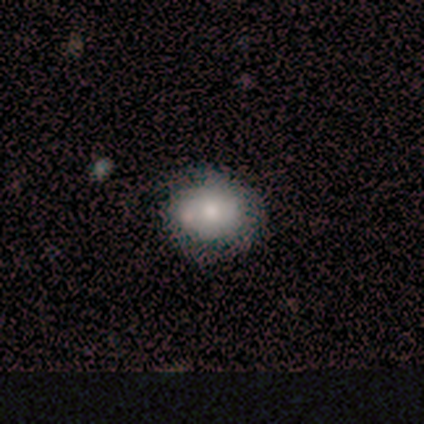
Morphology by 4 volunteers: smooth-or-featured: smooth: 75% | featured or disk: 25% | star or artifact: 0%
  how-rounded: round: 67% | in between: 33% | cigar-shaped: 0%
  merging: none: 100% | minor disturbance: 0% | major disturbance: 0% | merger: 0%